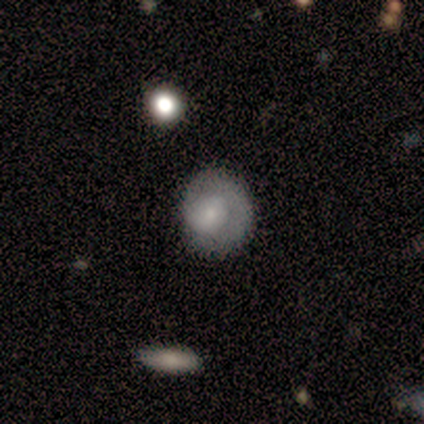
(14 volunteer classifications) Smooth or featured? 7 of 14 (50%, tied with featured or disk) said smooth. How rounded? 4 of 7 (57%) said round. Merging? 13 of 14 (93%) said none.